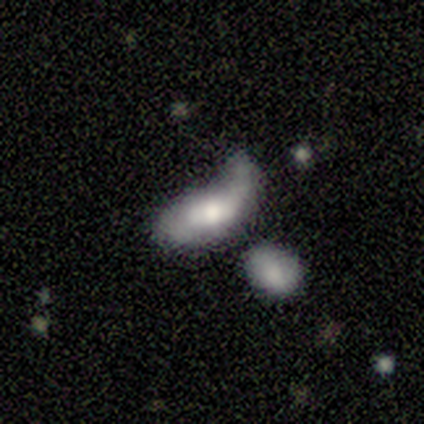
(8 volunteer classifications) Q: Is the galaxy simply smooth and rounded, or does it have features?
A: smooth — 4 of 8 (50%, tied with featured or disk).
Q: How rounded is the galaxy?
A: in between — 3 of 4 (75%).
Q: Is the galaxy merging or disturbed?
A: major disturbance — 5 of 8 (62%).